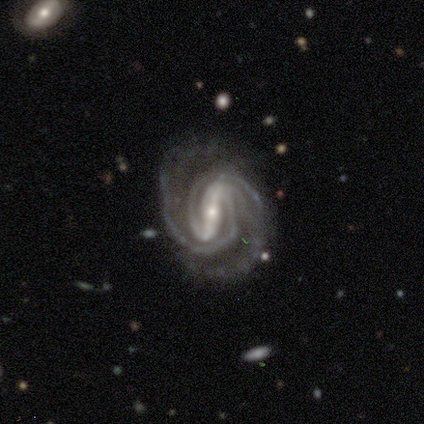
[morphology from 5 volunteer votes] Smooth or featured?
  - featured or disk: 100% *
  - smooth: 0%
  - star or artifact: 0%
Edge-on disk?
  - no: 100% *
  - yes: 0%
Bar?
  - strong: 100% *
  - weak: 0%
  - no: 0%
Spiral arms?
  - yes: 100% *
  - no: 0%
Spiral winding?
  - tight: 80% *
  - medium: 20%
  - loose: 0%
Spiral arm count?
  - 2: 80% *
  - 4: 20%
  - 1: 0%
  - 3: 0%
  - more than 4: 0%
  - can't tell: 0%
Bulge size?
  - small: 60% *
  - moderate: 40%
  - dominant: 0%
  - large: 0%
  - none: 0%
Merging?
  - none: 60% *
  - minor disturbance: 40%
  - major disturbance: 0%
  - merger: 0%